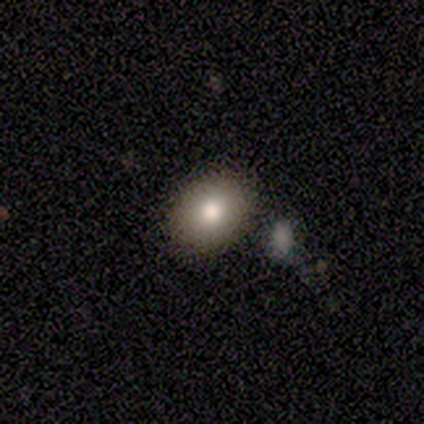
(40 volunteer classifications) Smooth or featured: smooth — 85% (featured or disk — 8%)
How rounded: in between — 59% (round — 38%)
Merging: none — 59% (merger — 11%)